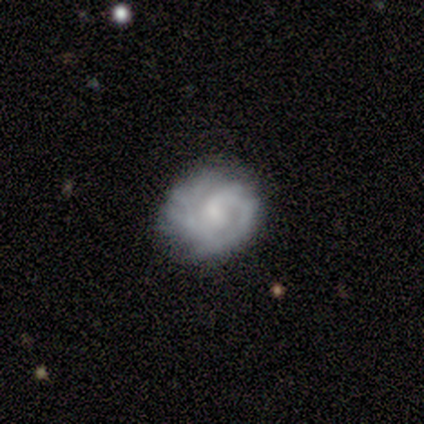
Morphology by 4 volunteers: A featured or disk galaxy (100%) with no bar (50%), tight (75%) spiral arms (100%) and a small central bulge (100%).

Vote fractions:
- Smooth or featured? featured or disk: 100% / smooth: 0% / star or artifact: 0%
- Edge-on disk? no: 100% / yes: 0%
- Bar? no: 50% / strong: 25% / weak: 25%
- Spiral arms? yes: 100% / no: 0%
- Spiral winding? tight: 75% / loose: 25% / medium: 0%
- Spiral arm count? can't tell: 50% / 1: 25% / more than 4: 25% / 2: 0% / 3: 0% / 4: 0%
- Bulge size? small: 100% / dominant: 0% / large: 0% / moderate: 0% / none: 0%
- Merging? minor disturbance: 50% / none: 25% / major disturbance: 25% / merger: 0%